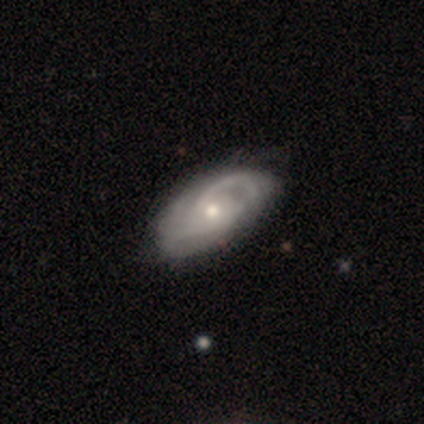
Smooth or featured? 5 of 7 (71%) said featured or disk. Edge-on disk? 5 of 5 (100%) said no. Bar? 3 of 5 (60%) said no. Spiral arms? 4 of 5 (80%) said yes. Spiral winding? 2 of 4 (50%) said medium. Spiral arm count? 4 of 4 (100%) said 2. Bulge size? 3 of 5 (60%) said moderate. Merging? 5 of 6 (83%) said none.